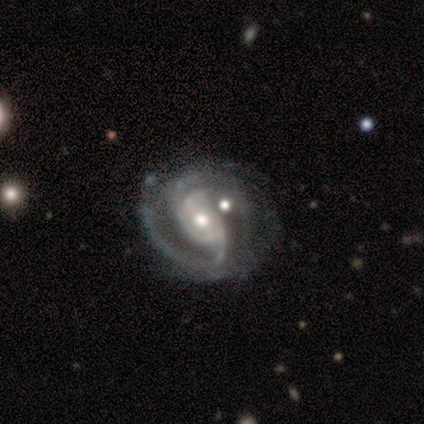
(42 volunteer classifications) A featured or disk galaxy (95%) with no bar (49%), 2 (47%) medium (58%) spiral arms (97%) and a moderate central bulge (59%). Merging: none (39%).